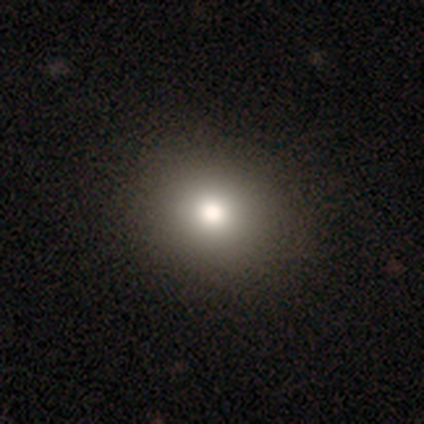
Smooth or featured? 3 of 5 (60%) said smooth. How rounded? 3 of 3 (100%) said round. Merging? 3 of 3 (100%) said none.